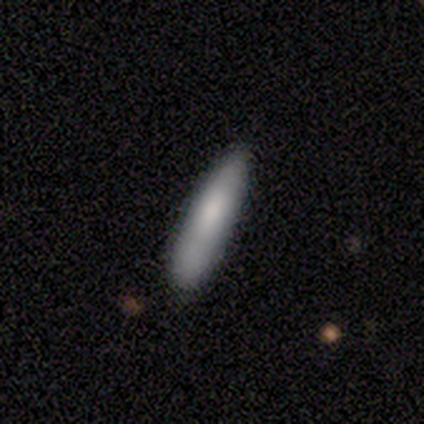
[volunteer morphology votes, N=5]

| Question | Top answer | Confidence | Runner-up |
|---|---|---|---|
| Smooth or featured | smooth | 80% | featured or disk (20%) |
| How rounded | cigar-shaped | 75% | in between (25%) |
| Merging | none | 80% | minor disturbance (20%) |